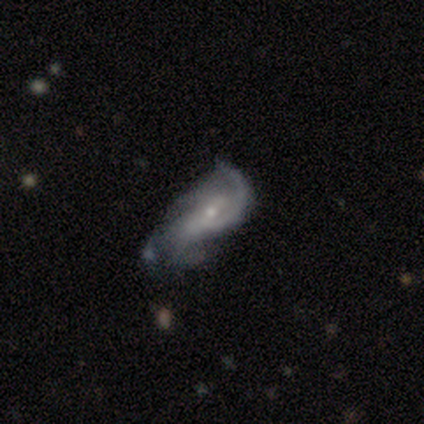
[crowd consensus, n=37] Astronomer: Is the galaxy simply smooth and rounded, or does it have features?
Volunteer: featured or disk — 84%.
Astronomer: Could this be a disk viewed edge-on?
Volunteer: no — 90%.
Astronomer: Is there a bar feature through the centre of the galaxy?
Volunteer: weak — 57% (runner-up: no, 39%).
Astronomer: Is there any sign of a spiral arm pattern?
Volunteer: yes — 89%.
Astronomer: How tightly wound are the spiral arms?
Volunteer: medium — 48% (runner-up: loose, 28%).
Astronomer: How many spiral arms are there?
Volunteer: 2 — 40% (runner-up: can't tell, 32%).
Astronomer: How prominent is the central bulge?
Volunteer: small — 68%.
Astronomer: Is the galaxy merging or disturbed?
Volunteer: minor disturbance — 35% (runner-up: major disturbance, 29%).